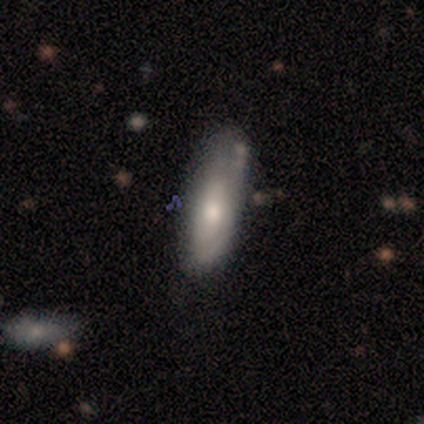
Morphology: type=featured or disk (60%); edge-on=no (100%); bar=no (67%); spiral arms=no (100%); bulge=small (67%); merging=none (60%).